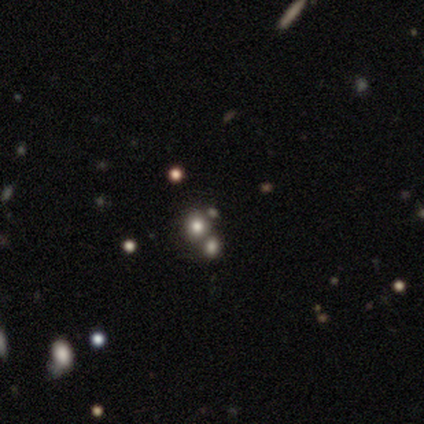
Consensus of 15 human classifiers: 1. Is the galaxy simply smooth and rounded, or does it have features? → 60% star or artifact, 40% smooth, 0% featured or disk.